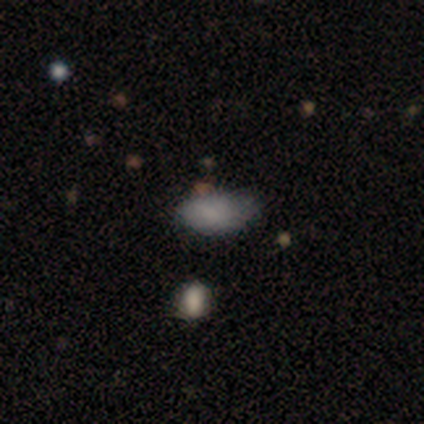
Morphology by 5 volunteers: Overall: smooth (80%). How rounded: in between (100%). Merging: none (80%).